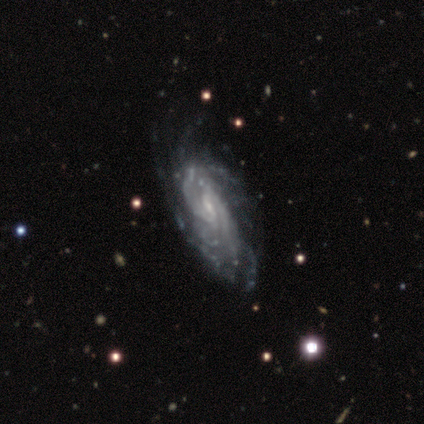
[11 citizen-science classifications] Volunteers were most divided on "bar" (2-way tie): weak: 40%, no: 40%, strong: 20%; "spiral arm count" (2-way tie): more than 4: 40%, can't tell: 40%, 2: 20%, 1: 0%, 3: 0%, 4: 0%. More confident: edge-on disk — no (100%); spiral arms — yes (100%); smooth or featured — featured or disk (91%); bulge size — small (80%); spiral winding — tight (70%); merging — none (70%).